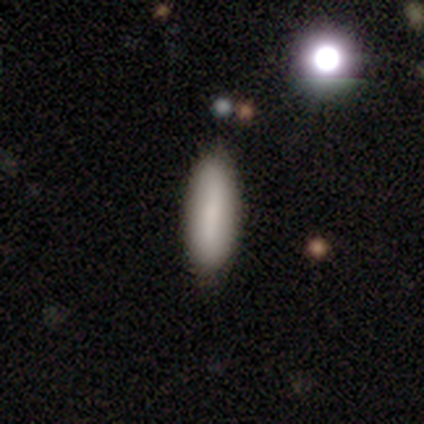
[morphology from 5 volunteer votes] A smooth galaxy with no disk features (100%) that is cigar-shaped (60%).

Vote fractions:
- Smooth or featured? smooth: 100% / featured or disk: 0% / star or artifact: 0%
- How rounded? cigar-shaped: 60% / in between: 40% / round: 0%
- Merging? none: 80% / minor disturbance: 20% / major disturbance: 0% / merger: 0%